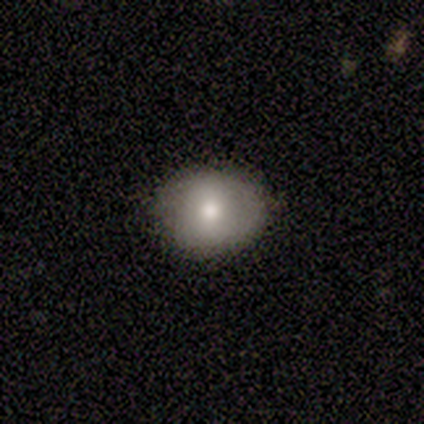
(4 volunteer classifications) Smooth or featured? smooth (100%)
How rounded? round (50%, tied with in between)
Merging? none (100%)